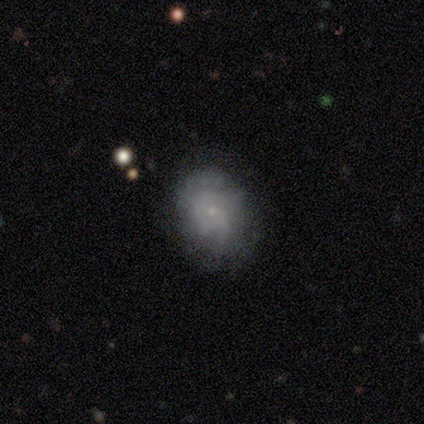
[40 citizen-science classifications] Q: Smooth or featured?
A: featured or disk (68%); runner-up: smooth (30%)
Q: Edge-on disk?
A: no (100%)
Q: Bar?
A: no (89%); runner-up: weak (11%)
Q: Spiral arms?
A: yes (59%); runner-up: no (41%)
Q: Spiral winding?
A: tight (44%); tied with: medium (44%)
Q: Spiral arm count?
A: can't tell (62%); runner-up: 3 (19%)
Q: Bulge size?
A: small (85%); runner-up: moderate (11%)
Q: Merging?
A: none (67%); runner-up: minor disturbance (28%)